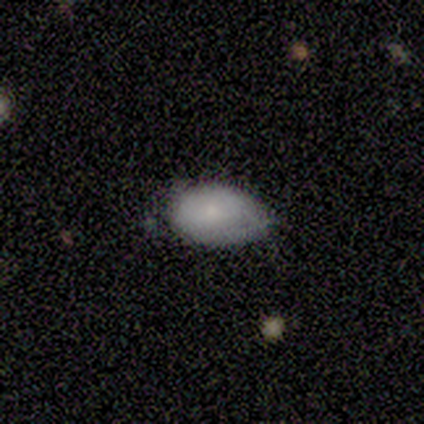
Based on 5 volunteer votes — Smooth or featured? 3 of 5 (60%) said smooth. How rounded? 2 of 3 (67%) said in between. Merging? 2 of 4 (50%, tied with minor disturbance) said none.